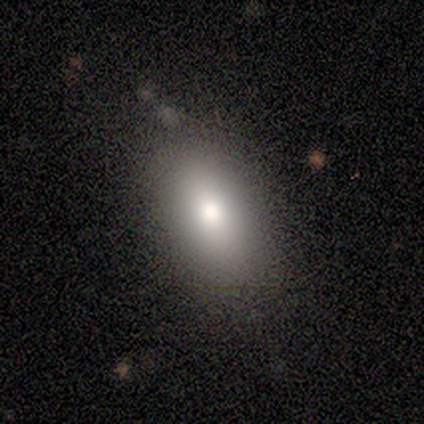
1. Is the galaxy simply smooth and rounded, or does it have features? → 100% smooth, 0% featured or disk, 0% star or artifact.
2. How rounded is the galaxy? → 100% in between, 0% round, 0% cigar-shaped.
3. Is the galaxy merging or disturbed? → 67% none, 33% minor disturbance, 0% major disturbance, 0% merger.